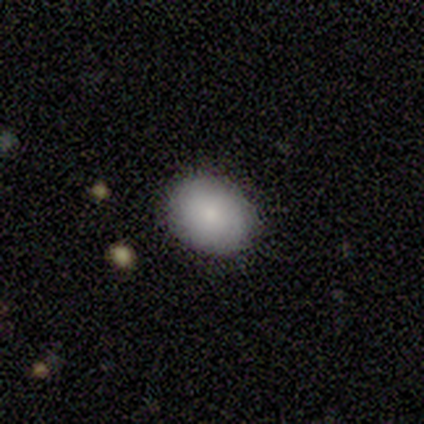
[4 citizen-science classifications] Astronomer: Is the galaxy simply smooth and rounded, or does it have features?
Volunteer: smooth — 100%.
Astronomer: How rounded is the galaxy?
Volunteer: round — 50%, tied with in between at 50%.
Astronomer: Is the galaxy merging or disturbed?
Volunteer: none — 100%.